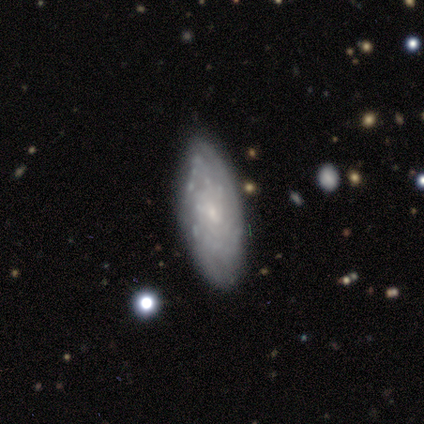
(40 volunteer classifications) A featured or disk galaxy (85%) with no bar (77%), tight (80%) spiral arms (65%) and a small central bulge (84%).

Vote fractions:
- Smooth or featured? featured or disk: 85% / smooth: 10% / star or artifact: 5%
- Edge-on disk? no: 91% / yes: 9%
- Bar? no: 77% / weak: 19% / strong: 3%
- Spiral arms? yes: 65% / no: 35%
- Spiral winding? tight: 80% / medium: 20% / loose: 0%
- Spiral arm count? can't tell: 75% / 2: 15% / 3: 5% / more than 4: 5% / 1: 0% / 4: 0%
- Bulge size? small: 84% / none: 10% / moderate: 6% / dominant: 0% / large: 0%
- Merging? none: 76% / minor disturbance: 18% / major disturbance: 3% / merger: 3%